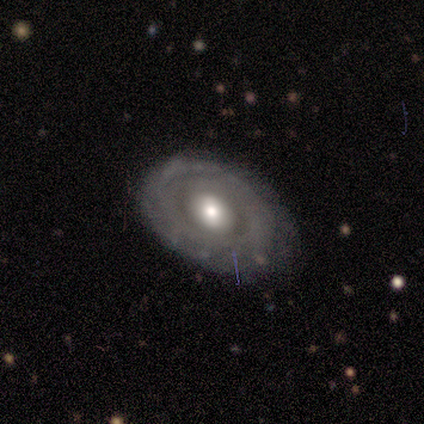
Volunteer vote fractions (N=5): Smooth or featured? 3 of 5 (60%) said featured or disk. Edge-on disk? 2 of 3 (67%) said no. Bar? 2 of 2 (100%) said no. Spiral arms? 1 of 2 (50%, tied with no) said yes. Spiral winding? 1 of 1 (100%) said tight. Spiral arm count? 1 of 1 (100%) said can't tell. Bulge size? 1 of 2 (50%, tied with moderate) said large. Merging? 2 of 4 (50%, tied with minor disturbance) said none.